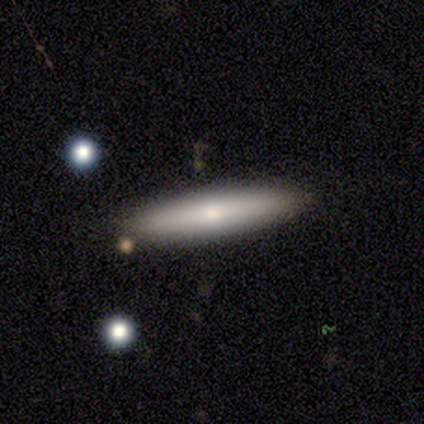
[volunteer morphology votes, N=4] Volunteers were most divided on "smooth or featured" (2-way tie): smooth: 50%, featured or disk: 50%, star or artifact: 0%; "how rounded" (2-way tie): in between: 50%, cigar-shaped: 50%, round: 0%. More confident: merging — none (75%).